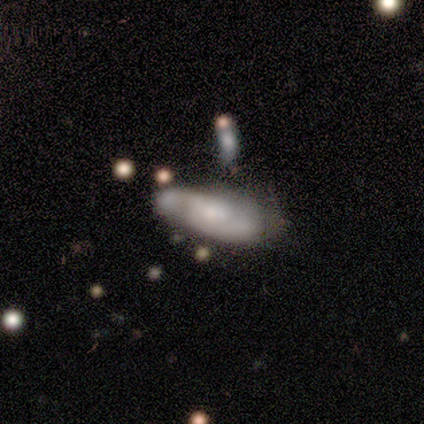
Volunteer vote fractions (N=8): A featured or disk galaxy (88%) with a weak bar (57%), 2 (100%) medium (80%) spiral arms (71%) and a moderate central bulge (57%). Merging: none (62%).